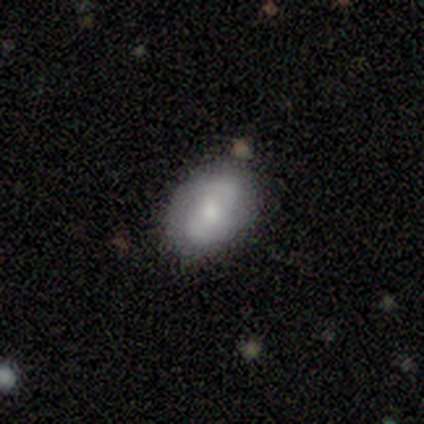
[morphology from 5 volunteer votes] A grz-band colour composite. It shows a featured or disk galaxy (60%) with no bar (67%), 2 (100%) medium (67%) spiral arms (100%) and a moderate central bulge (67%). Merging: none (100%).